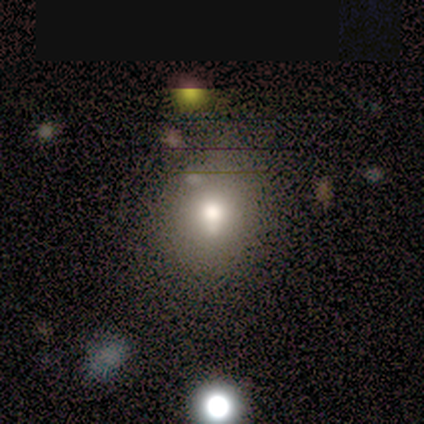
A smooth galaxy with no disk features (100%) that is round (100%).

Vote fractions:
- Smooth or featured? smooth: 100% / featured or disk: 0% / star or artifact: 0%
- How rounded? round: 100% / in between: 0% / cigar-shaped: 0%
- Merging? none: 100% / minor disturbance: 0% / major disturbance: 0% / merger: 0%